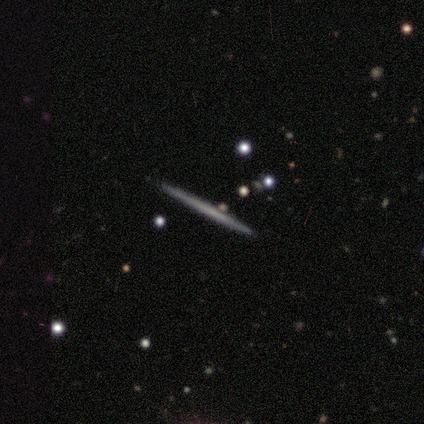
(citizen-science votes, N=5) Smooth or featured? 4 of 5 (80%) said smooth. How rounded? 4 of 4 (100%) said cigar-shaped. Merging? 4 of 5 (80%) said none.